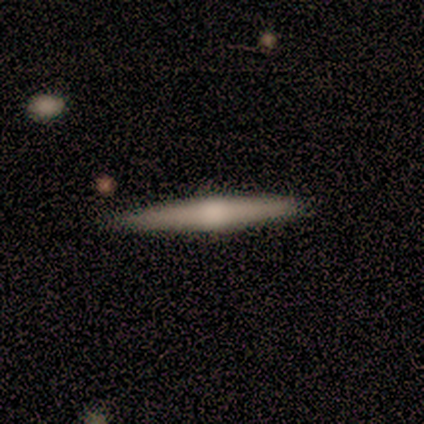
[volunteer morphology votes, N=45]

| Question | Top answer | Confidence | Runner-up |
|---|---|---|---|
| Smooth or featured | featured or disk | 71% | smooth (24%) |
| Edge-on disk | yes | 100% | — |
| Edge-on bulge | rounded | 75% | none (22%) |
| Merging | none | 86% | minor disturbance (9%) |